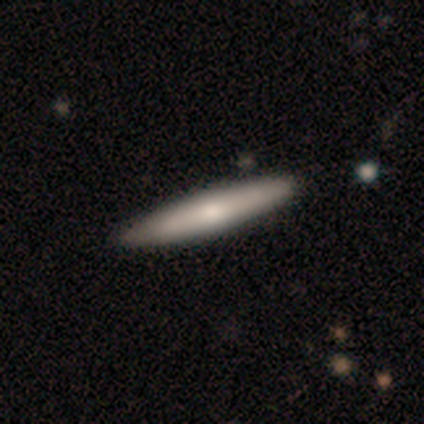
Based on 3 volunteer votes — Smooth or featured: smooth — 100%
How rounded: cigar-shaped — 100%
Merging: none — 67% (minor disturbance — 33%)